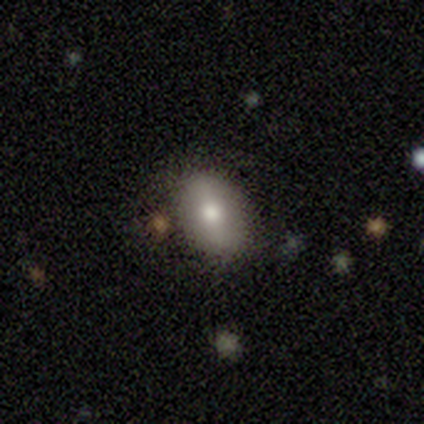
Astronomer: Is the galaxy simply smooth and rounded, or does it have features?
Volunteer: smooth — 47% (runner-up: featured or disk, 44%).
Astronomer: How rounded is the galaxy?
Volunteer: in between — 88%.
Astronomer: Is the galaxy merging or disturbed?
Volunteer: none — 82%.